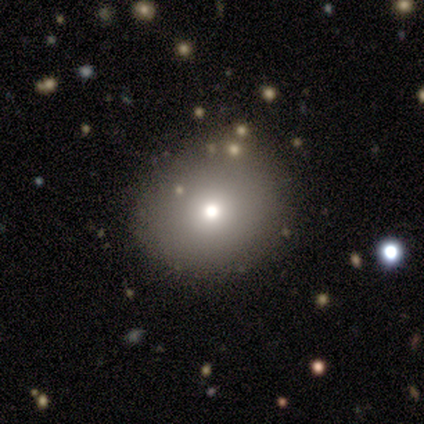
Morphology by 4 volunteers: smooth_or_featured: smooth (p=0.50) [alt: featured or disk p=0.25]
how_rounded: round (p=1.00)
merging: none (p=0.67) [alt: minor disturbance p=0.33]